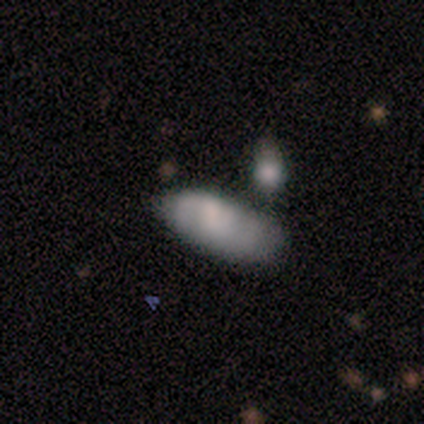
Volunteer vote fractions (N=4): Smooth or featured? 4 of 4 (100%) said smooth. How rounded? 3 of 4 (75%) said in between. Merging? 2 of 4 (50%) said none.